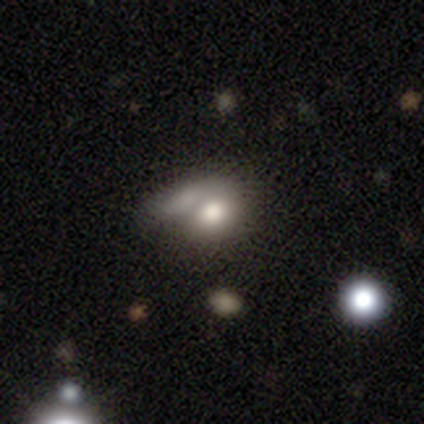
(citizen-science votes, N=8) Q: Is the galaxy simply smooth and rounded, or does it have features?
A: smooth — 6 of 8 (75%).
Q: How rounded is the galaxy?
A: in between — 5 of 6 (83%).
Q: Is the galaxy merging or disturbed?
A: merger — 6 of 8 (75%).